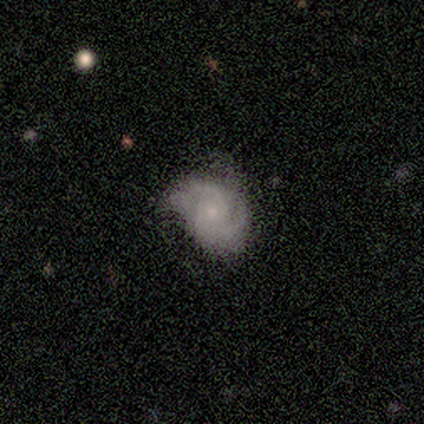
This appears to be a featured or disk galaxy (100%) with no bar (80%), 2 (100%) tight (75%) spiral arms (80%) and a small central bulge (60%). Merging: none (60%).